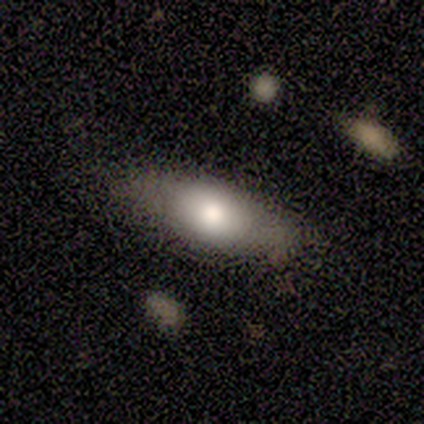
This is marginally a smooth galaxy (40%, tied with featured or disk). How rounded: clearly in between (100%). Merging: possibly none (50%, tied with minor disturbance).